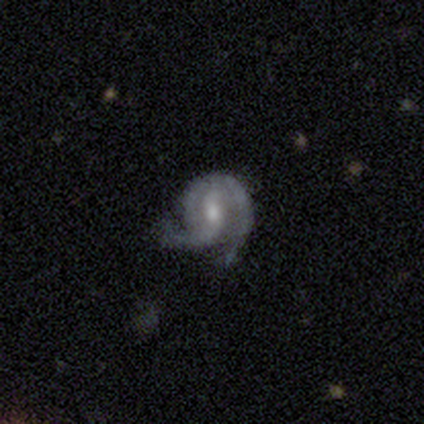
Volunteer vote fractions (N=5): This appears to be a featured or disk galaxy (100%) with a weak bar (60%), 2 (80%) medium (60%) spiral arms (100%) and a moderate central bulge (40%, tied with small). Merging: none (60%).